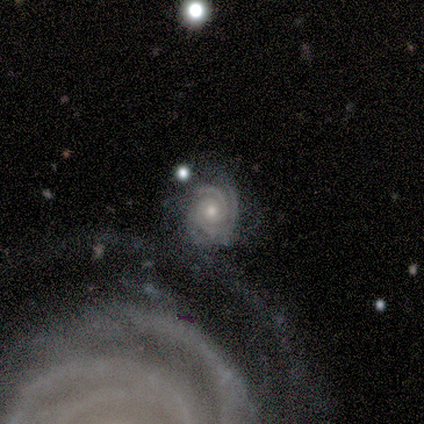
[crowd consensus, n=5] Smooth or featured: featured or disk — 100%
Edge-on disk: no — 100%
Bar: no — 100%
Spiral arms: yes — 100%
Spiral winding: tight — 100%
Spiral arm count: can't tell — 40% (2 — 20%)
Bulge size: moderate — 60% (large — 20%)
Merging: none — 60% (minor disturbance — 40%)